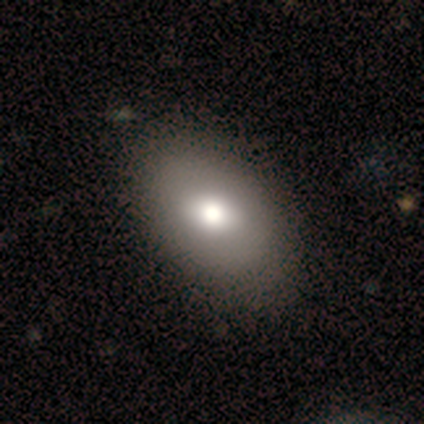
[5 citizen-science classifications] smooth-or-featured: smooth: 80% | featured or disk: 20% | star or artifact: 0%
  how-rounded: in between: 100% | round: 0% | cigar-shaped: 0%
  merging: none: 100% | minor disturbance: 0% | major disturbance: 0% | merger: 0%